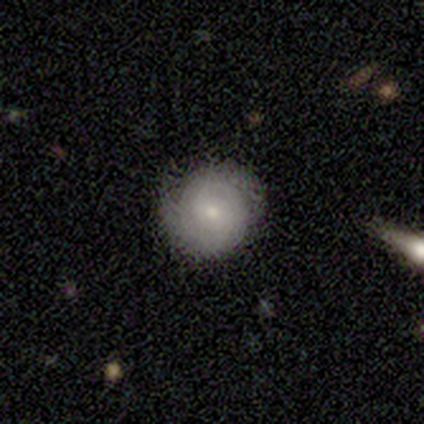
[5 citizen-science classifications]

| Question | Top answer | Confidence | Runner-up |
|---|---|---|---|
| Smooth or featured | smooth | 60% | featured or disk (40%) |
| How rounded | round | 100% | — |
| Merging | none | 80% | minor disturbance (20%) |